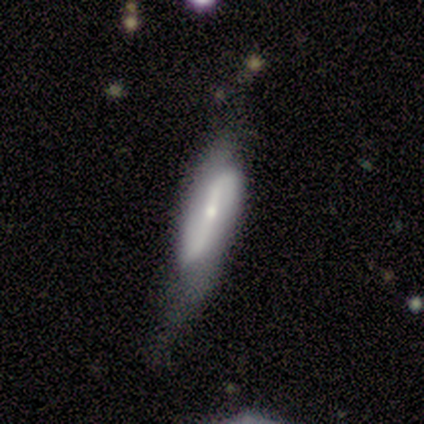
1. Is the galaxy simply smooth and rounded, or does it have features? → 80% featured or disk, 20% smooth, 0% star or artifact.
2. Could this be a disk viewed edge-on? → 100% no, 0% yes.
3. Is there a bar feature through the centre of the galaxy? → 50% weak, 25% strong, 25% no.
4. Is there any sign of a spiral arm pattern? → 100% yes, 0% no.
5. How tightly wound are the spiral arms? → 75% medium, 25% loose, 0% tight.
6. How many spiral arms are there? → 100% 2, 0% 1, 0% 3, 0% 4, 0% more than 4, 0% can't tell.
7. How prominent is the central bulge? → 75% small, 25% moderate, 0% dominant, 0% large, 0% none.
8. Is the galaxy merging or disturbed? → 60% none, 40% minor disturbance, 0% major disturbance, 0% merger.